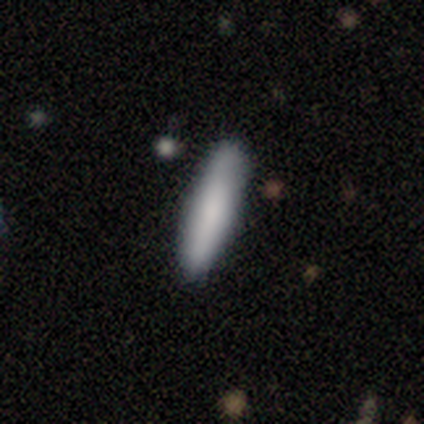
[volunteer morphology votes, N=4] smooth-or-featured: smooth: 75% | featured or disk: 25% | star or artifact: 0%
  how-rounded: cigar-shaped: 67% | in between: 33% | round: 0%
  merging: none: 100% | minor disturbance: 0% | major disturbance: 0% | merger: 0%